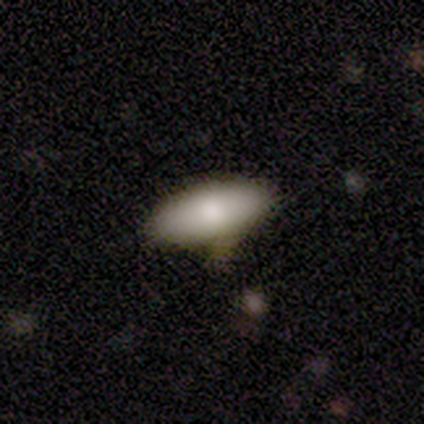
Morphology: type=smooth (100%); roundness=in between (100%); merging=none (67%).